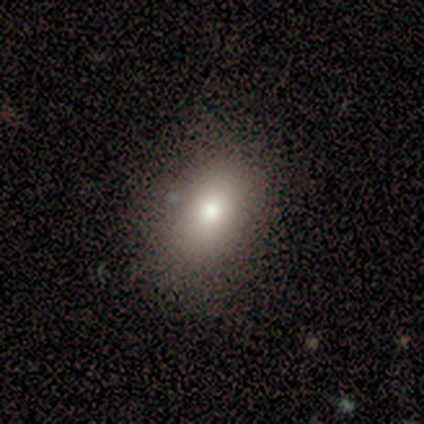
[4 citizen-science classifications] Smooth or featured?
  - smooth: 75% *
  - featured or disk: 25%
  - star or artifact: 0%
How rounded?
  - in between: 67% *
  - round: 33%
  - cigar-shaped: 0%
Merging?
  - none: 75% *
  - minor disturbance: 25%
  - major disturbance: 0%
  - merger: 0%